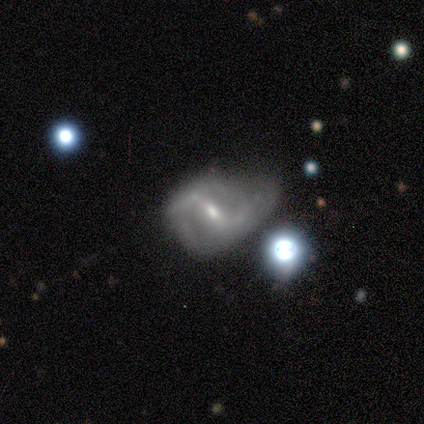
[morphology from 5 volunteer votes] This is clearly a featured or disk galaxy (100%). It is clearly not viewed edge-on (100%). Bar: likely strong (60%). Spiral arm pattern: clearly yes (100%). Spiral arm count: clearly 2 (100%). Spiral winding: likely medium (60%). Central bulge: likely moderate (60%). Merging: likely none (60%).